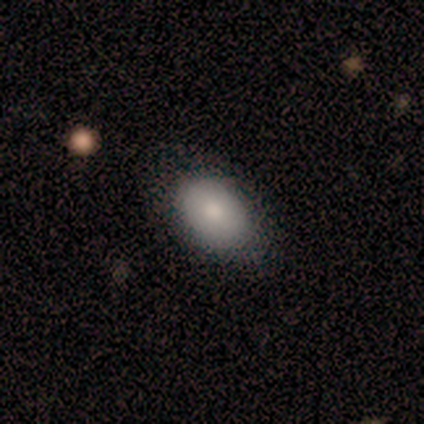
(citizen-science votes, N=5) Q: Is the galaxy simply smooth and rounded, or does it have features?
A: smooth — 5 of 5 (100%).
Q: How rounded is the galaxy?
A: in between — 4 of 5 (80%).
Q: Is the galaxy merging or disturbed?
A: none — 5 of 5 (100%).